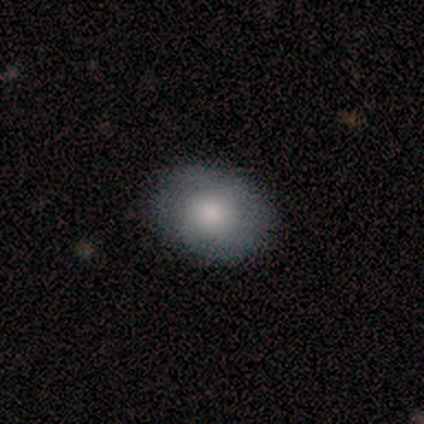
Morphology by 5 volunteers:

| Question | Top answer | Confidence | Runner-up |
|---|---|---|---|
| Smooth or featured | smooth | 80% | star or artifact (20%) |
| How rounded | in between | 75% | round (25%) |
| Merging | none | 50% | tied: minor disturbance (50%) |